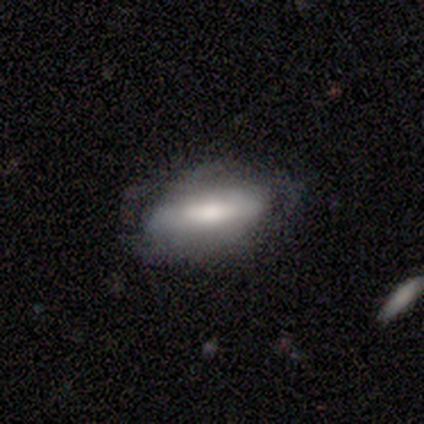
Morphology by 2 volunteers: Smooth or featured: smooth — 50% (tied with featured or disk — 50%)
How rounded: cigar-shaped — 100%
Merging: none — 100%